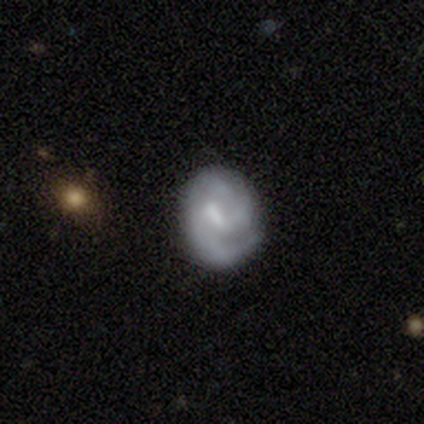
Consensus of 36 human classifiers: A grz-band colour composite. It shows a featured or disk galaxy (78%) with a weak bar (63%), 2 (64%) medium (52%) spiral arms (93%) and a moderate central bulge (41%, tied with none). Merging: none (69%).